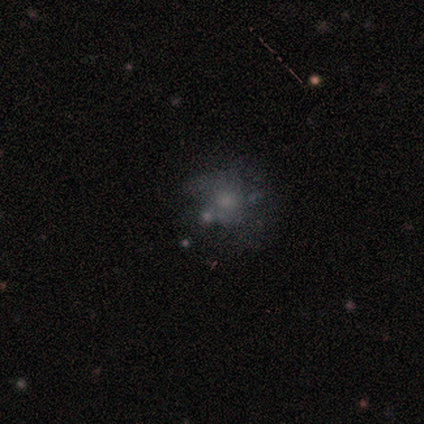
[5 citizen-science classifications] A featured or disk galaxy (80%) with no bar (100%), no spiral arms (100%) and a moderate central bulge (75%). Merging: none (50%).